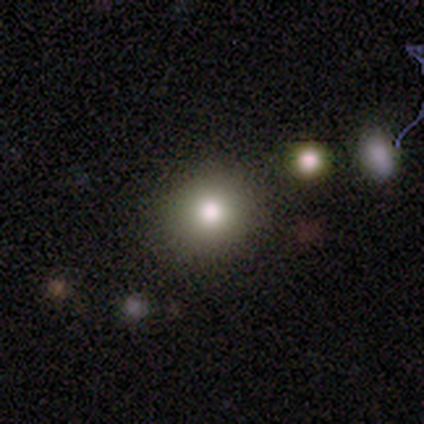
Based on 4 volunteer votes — A smooth galaxy with no disk features (75%) that is round (67%).

Vote fractions:
- Smooth or featured? smooth: 75% / star or artifact: 25% / featured or disk: 0%
- How rounded? round: 67% / in between: 33% / cigar-shaped: 0%
- Merging? none: 67% / minor disturbance: 33% / major disturbance: 0% / merger: 0%